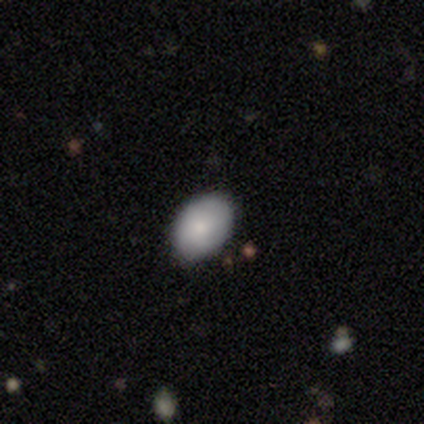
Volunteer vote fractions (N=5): A smooth galaxy with no disk features (100%) that is in between round and cigar-shaped (80%). Merging: none (60%).